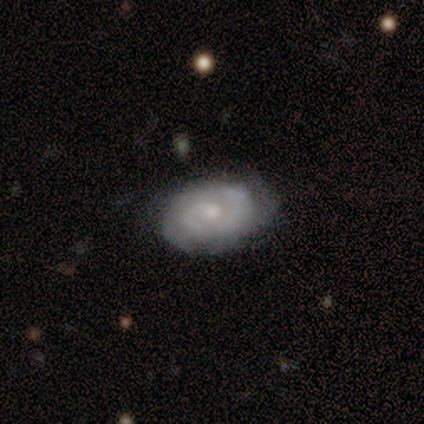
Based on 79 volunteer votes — Smooth or featured? featured or disk (85%)
Edge-on disk? no (100%)
Bar? no (69%)
Spiral arms? yes (87%)
Spiral winding? tight (55%)
Spiral arm count? 2 (52%)
Bulge size? small (48%)
Merging? none (29%)